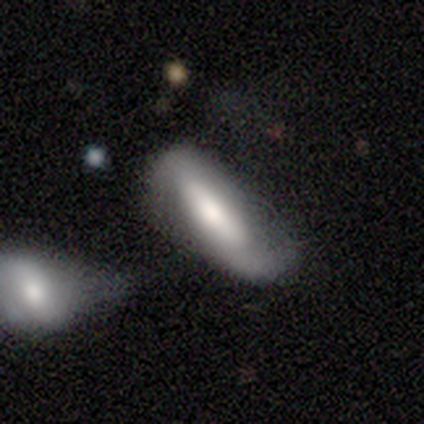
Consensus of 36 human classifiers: Smooth or featured? 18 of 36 (50%) said smooth. How rounded? 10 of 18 (56%) said cigar-shaped. Merging? 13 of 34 (38%) said minor disturbance.